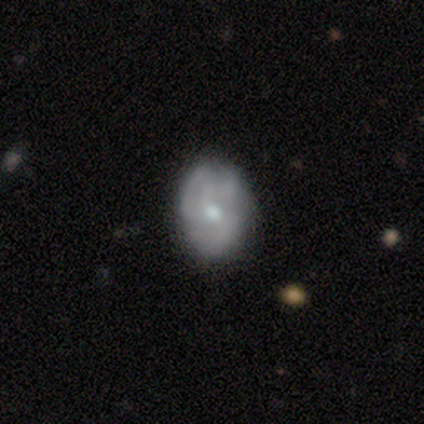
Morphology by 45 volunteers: This appears to be a featured or disk galaxy (53%) with no bar (67%), tight (41%) spiral arms (71%) and a moderate central bulge (46%, tied with small). Merging: none (79%).